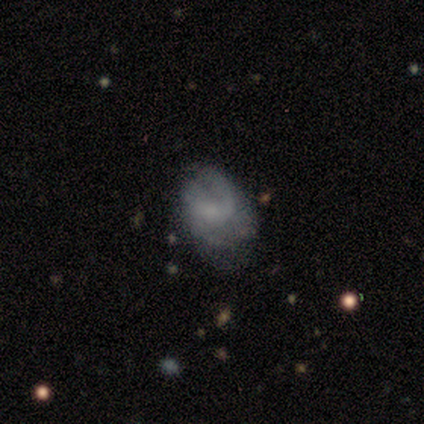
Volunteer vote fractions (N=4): Morphology: type=featured or disk (75%); edge-on=no (100%); bar=weak (67%); spiral arms=yes (100%); winding=loose (67%); arm count=1 (33%, tied with 2 and 4); bulge=none (67%); merging=none (75%).